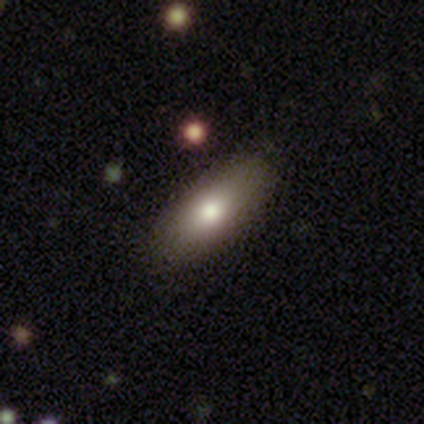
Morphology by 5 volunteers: A smooth galaxy with no disk features (80%) that is in between round and cigar-shaped (75%). Merging: none (60%).